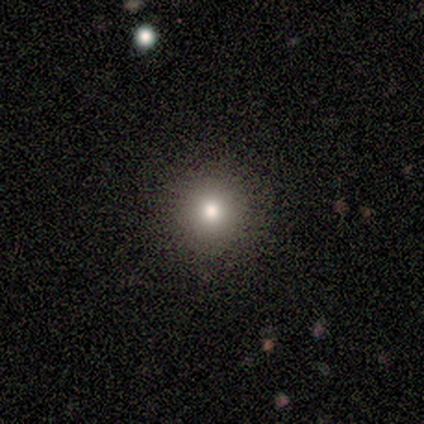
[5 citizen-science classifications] This appears to be a star or artifact, not a galaxy (60%).